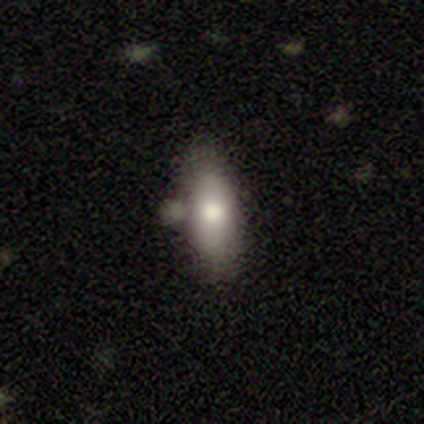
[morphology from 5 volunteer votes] Smooth or featured? 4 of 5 (80%) said smooth. How rounded? 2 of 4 (50%) said in between. Merging? 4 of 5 (80%) said none.